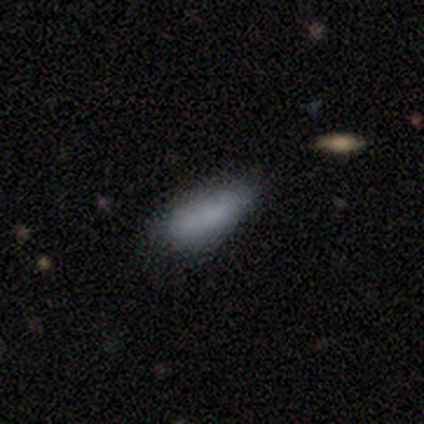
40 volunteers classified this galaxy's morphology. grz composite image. It shows a smooth galaxy with no disk features (82%) that is in between round and cigar-shaped (70%). Merging: none (43%).